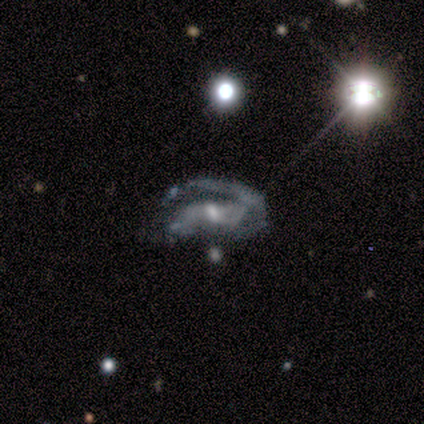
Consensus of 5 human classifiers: This is clearly a featured or disk galaxy (80%). It is clearly not viewed edge-on (100%). Bar: likely weak (75%). Spiral arm pattern: possibly yes (50%, tied with no). Spiral arm count: possibly 2 (50%, tied with can't tell). Spiral winding: possibly medium (50%, tied with loose). Central bulge: clearly small (100%). Merging: possibly none (50%, tied with major disturbance).